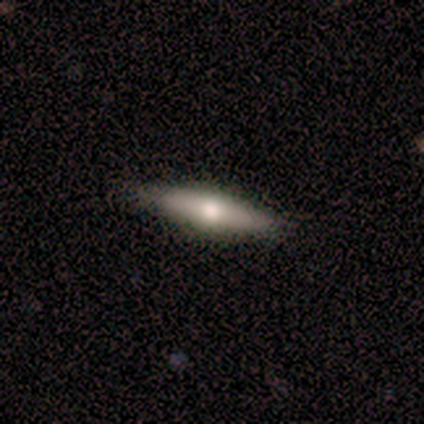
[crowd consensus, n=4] Smooth or featured? featured or disk (100%)
Edge-on disk? yes (100%)
Edge-on bulge? rounded (100%)
Merging? none (100%)